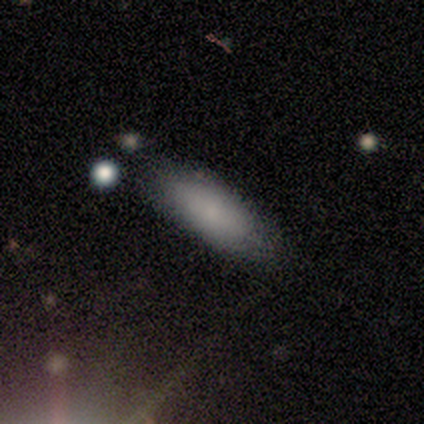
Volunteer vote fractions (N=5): Smooth or featured: smooth — 100%
How rounded: in between — 60% (cigar-shaped — 40%)
Merging: none — 60% (minor disturbance — 20%)